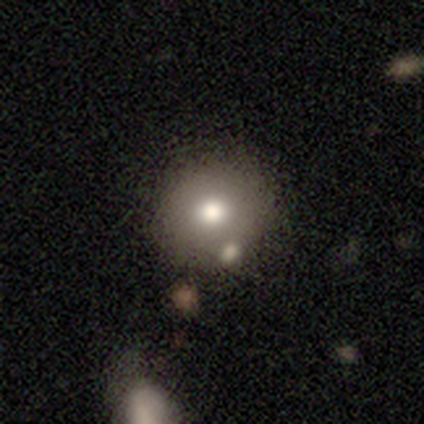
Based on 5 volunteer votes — A smooth galaxy with no disk features (80%) that is round (100%). Merging: none (75%).